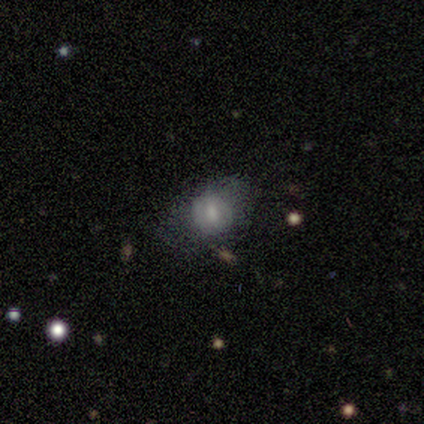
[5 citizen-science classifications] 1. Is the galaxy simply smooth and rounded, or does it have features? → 40% smooth (tied), 40% featured or disk (tied), 20% star or artifact.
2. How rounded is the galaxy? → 100% in between, 0% round, 0% cigar-shaped.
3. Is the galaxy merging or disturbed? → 50% minor disturbance, 25% none, 25% major disturbance, 0% merger.